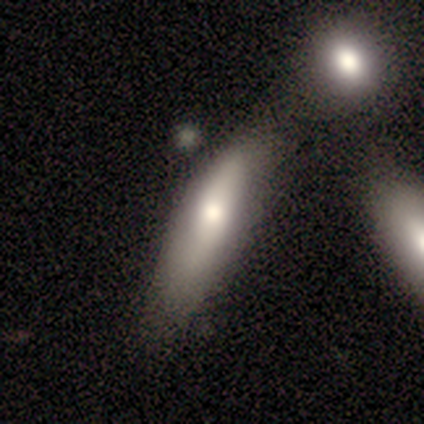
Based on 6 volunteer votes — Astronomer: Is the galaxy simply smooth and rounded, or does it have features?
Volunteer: smooth — 67%.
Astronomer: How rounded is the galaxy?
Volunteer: cigar-shaped — 100%.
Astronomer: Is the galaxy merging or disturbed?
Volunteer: none — 40%, tied with minor disturbance at 40%.